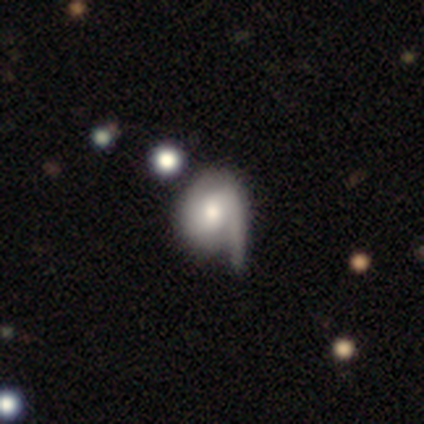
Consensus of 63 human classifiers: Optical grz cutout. It shows a featured or disk galaxy (68%) with no bar (58%), 1 (52%) tight (39%) spiral arms (77%) and a moderate central bulge (56%). Merging: none (44%).